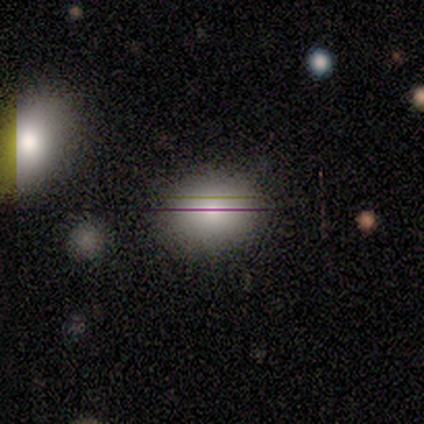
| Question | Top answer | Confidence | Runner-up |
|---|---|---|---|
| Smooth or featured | smooth | 80% | star or artifact (20%) |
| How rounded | in between | 100% | — |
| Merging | none | 100% | — |